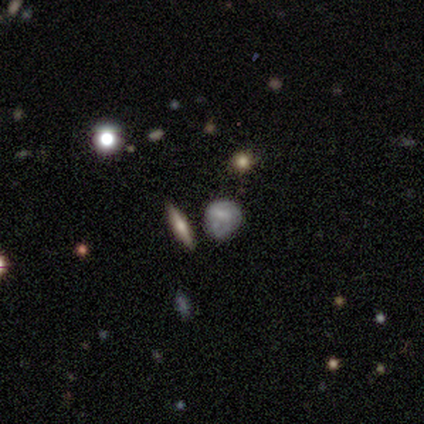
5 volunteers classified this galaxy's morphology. Smooth or featured? smooth (60%)
How rounded? round (67%)
Merging? minor disturbance (40%, tied with major disturbance)